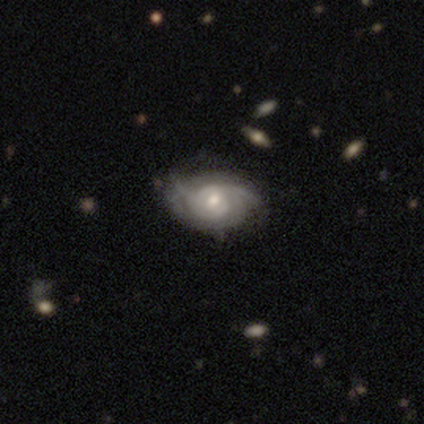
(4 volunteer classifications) Smooth or featured?
  - featured or disk: 75% *
  - smooth: 25%
  - star or artifact: 0%
Edge-on disk?
  - no: 100% *
  - yes: 0%
Bar?
  - no: 67% *
  - weak: 33%
  - strong: 0%
Spiral arms?
  - yes: 67% *
  - no: 33%
Spiral winding?
  - tight: 50% * (tied)
  - medium: 50% * (tied)
  - loose: 0%
Spiral arm count?
  - 3: 50% * (tied)
  - can't tell: 50% * (tied)
  - 1: 0%
  - 2: 0%
  - 4: 0%
  - more than 4: 0%
Bulge size?
  - small: 67% *
  - moderate: 33%
  - dominant: 0%
  - large: 0%
  - none: 0%
Merging?
  - none: 75% *
  - minor disturbance: 25%
  - major disturbance: 0%
  - merger: 0%